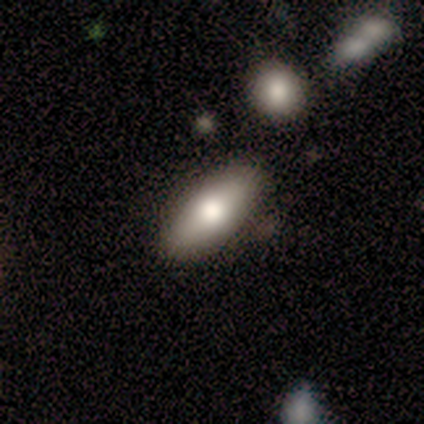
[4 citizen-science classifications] Overall: smooth (100%). How rounded: in between (100%). Merging: none (75%).